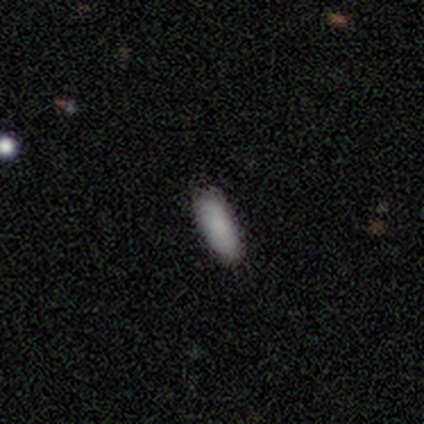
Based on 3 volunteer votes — Overall: smooth (100%). How rounded: in between (67%; cigar-shaped 33%). Merging: none (100%).